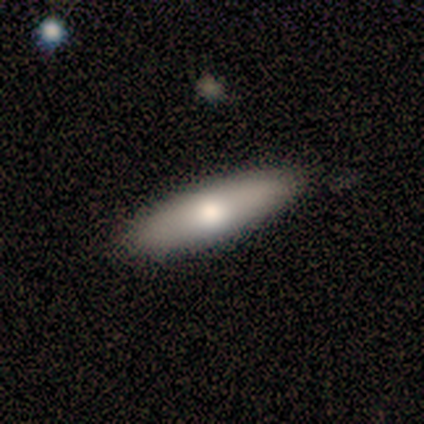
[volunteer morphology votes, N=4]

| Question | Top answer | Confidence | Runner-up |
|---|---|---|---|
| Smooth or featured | smooth | 100% | — |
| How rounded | in between | 50% | tied: cigar-shaped (50%) |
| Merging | none | 100% | — |